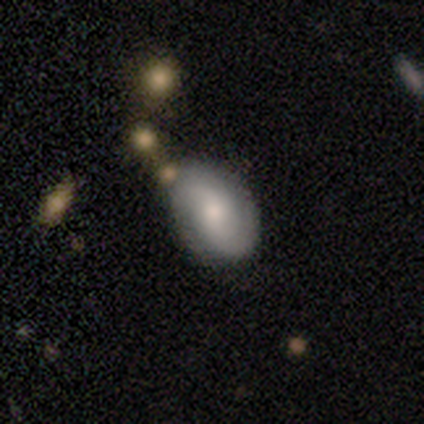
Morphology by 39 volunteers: smooth-or-featured: featured or disk: 56% | smooth: 41% | star or artifact: 3%
  disk-edge-on: no: 100% | yes: 0%
    bar: no: 55% | weak: 41% | strong: 5%
    has-spiral-arms: yes: 77% | no: 23%
      spiral-winding: medium: 41% | loose: 35% | tight: 24%
      spiral-arm-count: 2: 82% | can't tell: 12% | 4: 6% | 1: 0% | 3: 0% | more than 4: 0%
    bulge-size: small: 73% | large: 14% | moderate: 14% | dominant: 0% | none: 0%
  merging: none: 71% | minor disturbance: 16% | merger: 13% | major disturbance: 0%